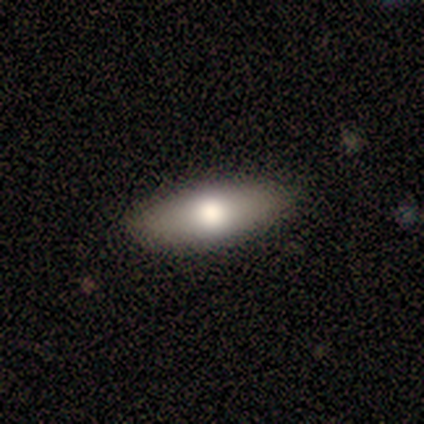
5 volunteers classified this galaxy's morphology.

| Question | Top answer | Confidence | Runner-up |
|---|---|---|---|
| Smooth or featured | smooth | 60% | featured or disk (40%) |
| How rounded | in between | 67% | cigar-shaped (33%) |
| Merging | none | 100% | — |